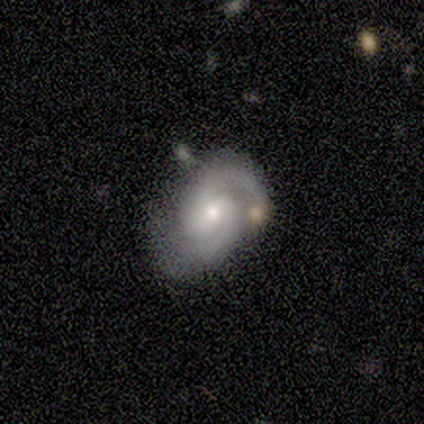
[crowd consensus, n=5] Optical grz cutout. It shows a featured or disk galaxy (80%) with a weak bar (67%), 2 (100%) tight (33%, tied with medium and loose) spiral arms (100%) and a moderate central bulge (67%). Merging: none (75%).